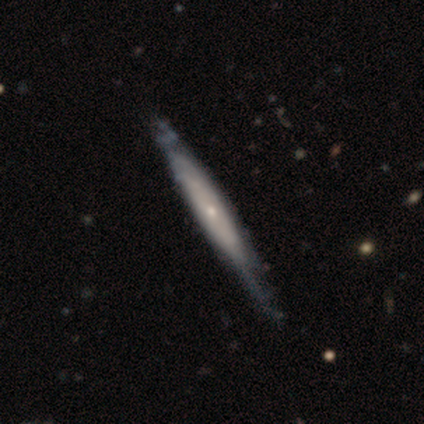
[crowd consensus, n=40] Smooth or featured? featured or disk (80%)
Edge-on disk? yes (75%)
Edge-on bulge? rounded (71%)
Merging? none (35%)